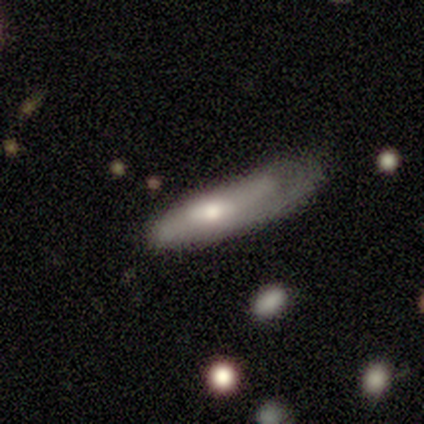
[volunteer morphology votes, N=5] Overall: featured or disk (80%). Edge-on disk: yes (50%, tied with no). Edge-on bulge: boxy (50%, tied with rounded). Merging: major disturbance (80%).